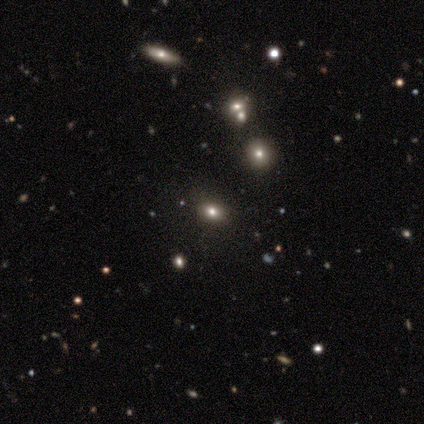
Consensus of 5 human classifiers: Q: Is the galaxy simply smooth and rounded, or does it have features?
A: featured or disk — 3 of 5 (60%).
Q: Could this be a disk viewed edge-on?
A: no — 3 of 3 (100%).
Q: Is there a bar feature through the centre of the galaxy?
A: no — 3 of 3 (100%).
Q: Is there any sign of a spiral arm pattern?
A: no — 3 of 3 (100%).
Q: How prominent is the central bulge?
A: large — 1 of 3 (33%, tied with moderate and none).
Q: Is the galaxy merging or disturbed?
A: none — 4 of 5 (80%).